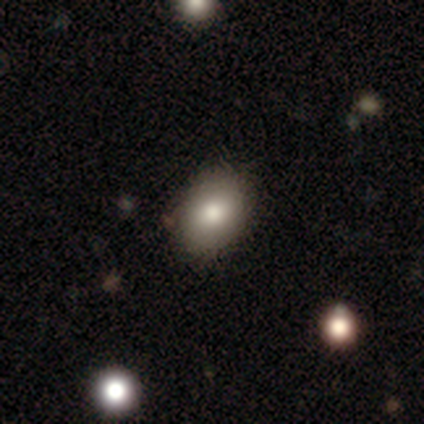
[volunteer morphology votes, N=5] type=smooth (80%); roundness=in between (100%); merging=none (80%).